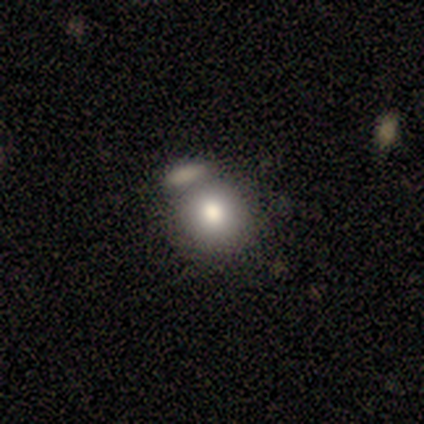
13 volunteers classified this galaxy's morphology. Volunteers were most divided on "merging": none: 40%, merger: 30%, major disturbance: 20%, minor disturbance: 10%. More confident: how rounded — round (75%); smooth or featured — smooth (62%).